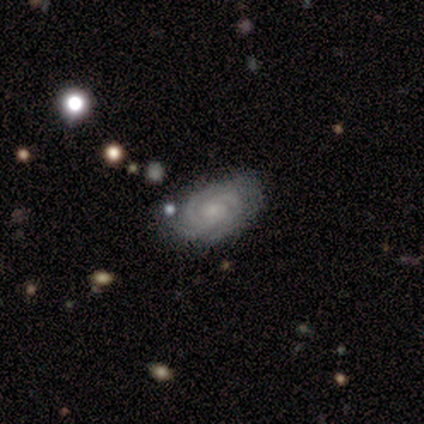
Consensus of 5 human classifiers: smooth-or-featured: featured or disk: 100% | smooth: 0% | star or artifact: 0%
  disk-edge-on: no: 100% | yes: 0%
    bar: no: 100% | strong: 0% | weak: 0%
    has-spiral-arms: yes: 100% | no: 0%
      spiral-winding: tight: 100% | medium: 0% | loose: 0%
      spiral-arm-count: 3: 60% | 2: 20% | 4: 20% | 1: 0% | more than 4: 0% | can't tell: 0%
    bulge-size: small: 80% | none: 20% | dominant: 0% | large: 0% | moderate: 0%
  merging: none: 60% | minor disturbance: 20% | merger: 20% | major disturbance: 0%